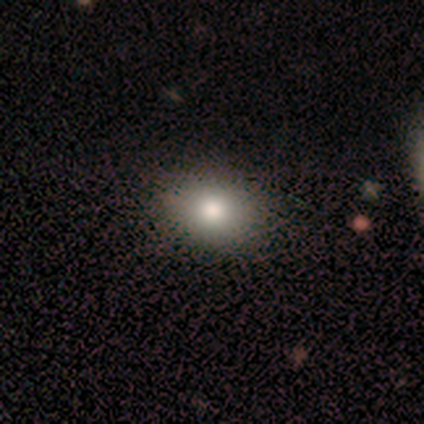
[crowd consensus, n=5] Volunteers were most divided on "smooth or featured": smooth: 60%, featured or disk: 40%, star or artifact: 0%. More confident: how rounded — in between (67%); merging — minor disturbance (60%).